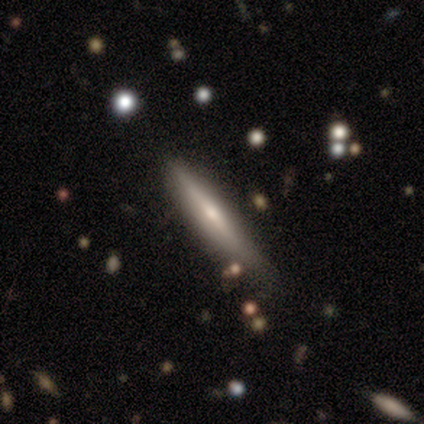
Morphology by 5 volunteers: A featured or disk galaxy (100%) viewed edge-on (100%) with a rounded central bulge (80%).

Vote fractions:
- Smooth or featured? featured or disk: 100% / smooth: 0% / star or artifact: 0%
- Edge-on disk? yes: 100% / no: 0%
- Edge-on bulge? rounded: 80% / none: 20% / boxy: 0%
- Merging? none: 80% / minor disturbance: 20% / major disturbance: 0% / merger: 0%